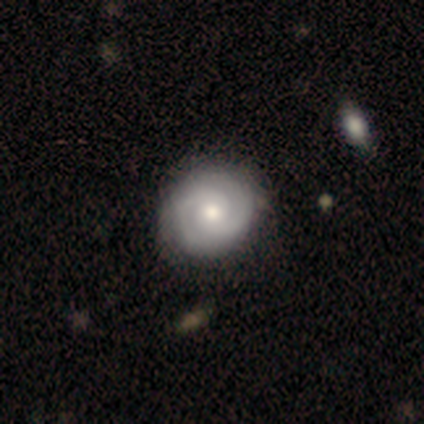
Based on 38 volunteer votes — A featured or disk galaxy (79%) with no bar (79%), 2 (86%) tight (91%) spiral arms (76%) and a moderate central bulge (55%). Merging: none (46%).